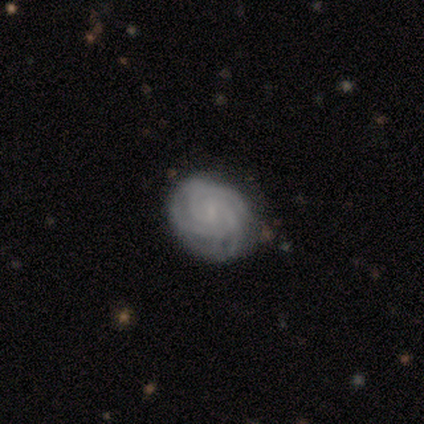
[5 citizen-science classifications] Smooth or featured? featured or disk (100%)
Edge-on disk? no (100%)
Bar? no (100%)
Spiral arms? yes (100%)
Spiral winding? tight (100%)
Spiral arm count? 3 (60%)
Bulge size? small (60%)
Merging? none (100%)